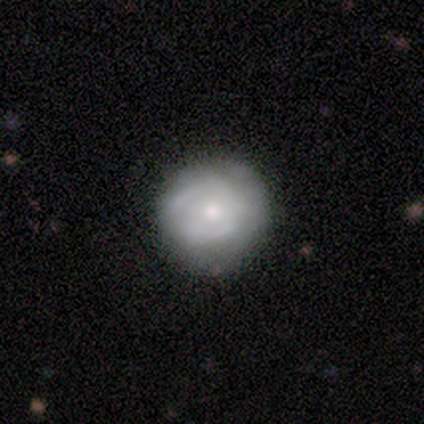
A featured or disk galaxy (57%) with no bar (75%), 2 (67%) medium (67%) spiral arms (75%) and a moderate central bulge (75%). Merging: none (71%).